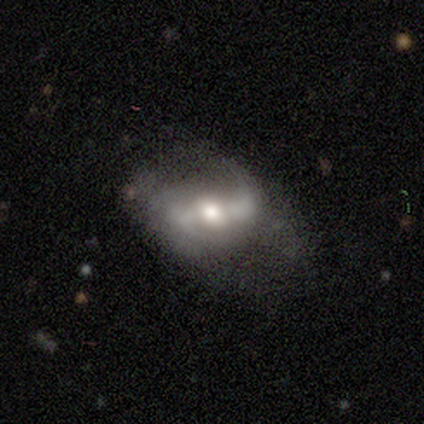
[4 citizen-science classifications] smooth-or-featured: featured or disk: 75% | star or artifact: 25% | smooth: 0%
  disk-edge-on: no: 100% | yes: 0%
    bar: weak: 100% | strong: 0% | no: 0%
    has-spiral-arms: yes: 67% | no: 33%
      spiral-winding: medium: 50% (tied) | loose: 50% (tied) | tight: 0%
      spiral-arm-count: 2: 100% | 1: 0% | 3: 0% | 4: 0% | more than 4: 0% | can't tell: 0%
    bulge-size: moderate: 67% | small: 33% | dominant: 0% | large: 0% | none: 0%
  merging: minor disturbance: 67% | none: 33% | major disturbance: 0% | merger: 0%